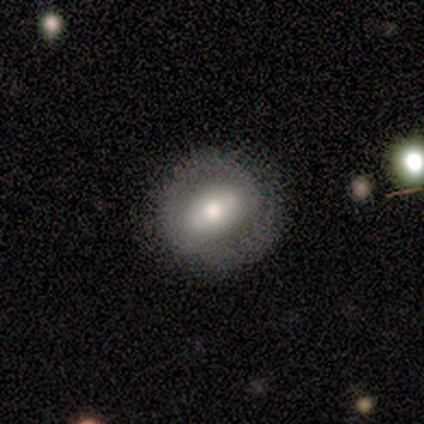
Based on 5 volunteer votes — A smooth galaxy with no disk features (60%) that is round (67%).

Vote fractions:
- Smooth or featured? smooth: 60% / featured or disk: 40% / star or artifact: 0%
- How rounded? round: 67% / in between: 33% / cigar-shaped: 0%
- Merging? none: 60% / minor disturbance: 40% / major disturbance: 0% / merger: 0%